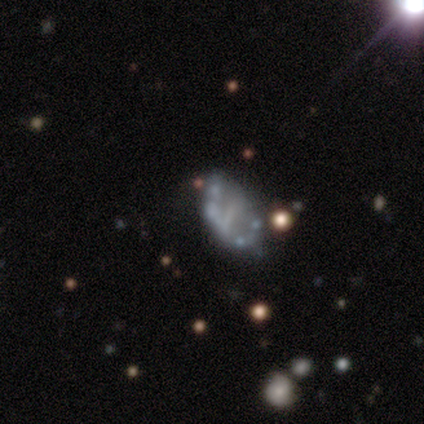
Smooth or featured? 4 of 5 (80%) said featured or disk. Edge-on disk? 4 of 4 (100%) said no. Bar? 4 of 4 (100%) said no. Spiral arms? 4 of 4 (100%) said no. Bulge size? 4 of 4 (100%) said none. Merging? 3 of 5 (60%) said none.